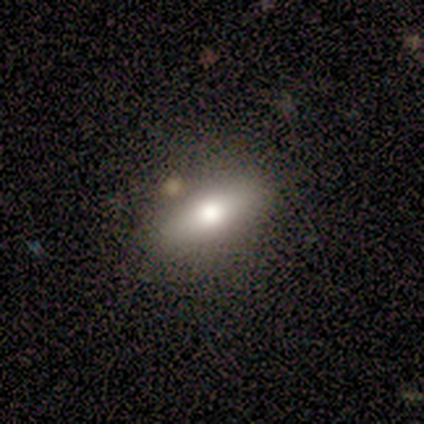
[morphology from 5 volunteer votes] A featured or disk galaxy (40%, tied with star or artifact) viewed edge-on (50%, tied with no) with a rounded central bulge (100%).

Vote fractions:
- Smooth or featured? featured or disk: 40% (tied) / star or artifact: 40% (tied) / smooth: 20%
- Edge-on disk? yes: 50% (tied) / no: 50% (tied)
- Edge-on bulge? rounded: 100% / boxy: 0% / none: 0%
- Merging? none: 67% / minor disturbance: 33% / major disturbance: 0% / merger: 0%